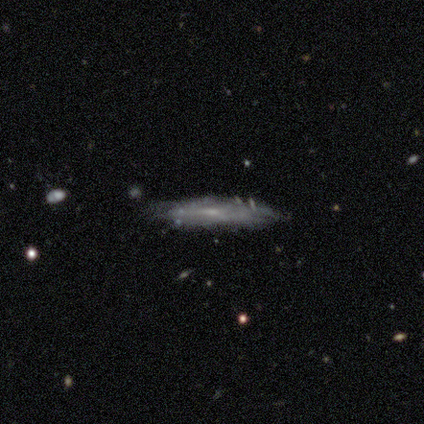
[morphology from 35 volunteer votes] featured or disk 77%, smooth 20%, star or artifact 3%. Down the decision tree: edge-on disk — yes (74%); edge-on bulge — none (65%); merging — none (59%).